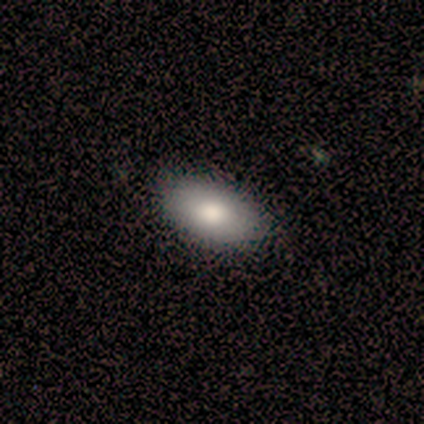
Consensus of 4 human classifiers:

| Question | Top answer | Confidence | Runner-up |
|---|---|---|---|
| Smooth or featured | smooth | 100% | — |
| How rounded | in between | 75% | round (25%) |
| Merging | none | 100% | — |